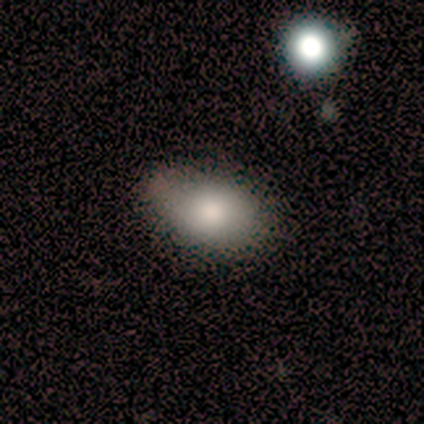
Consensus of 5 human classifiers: A smooth galaxy with no disk features (100%) that is in between round and cigar-shaped (60%). Merging: none (80%).